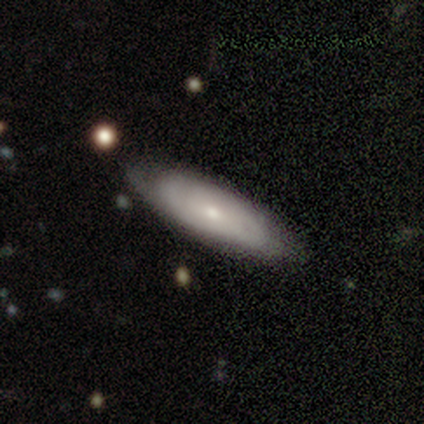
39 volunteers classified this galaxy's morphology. Smooth or featured: featured or disk — 54% (smooth — 41%)
Edge-on disk: no — 71% (yes — 29%)
Bar: no — 80% (weak — 13%)
Spiral arms: yes — 60% (no — 40%)
Spiral winding: tight — 78% (medium — 22%)
Spiral arm count: can't tell — 78% (1 — 11%)
Bulge size: small — 73% (moderate — 27%)
Merging: none — 81% (minor disturbance — 14%)